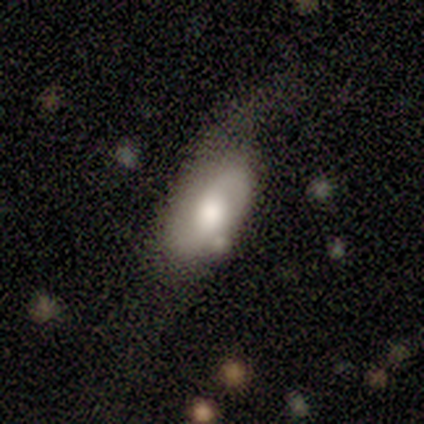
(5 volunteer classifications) Smooth or featured? featured or disk (60%)
Edge-on disk? no (100%)
Bar? no (67%)
Spiral arms? yes (67%)
Spiral winding? medium (50%, tied with loose)
Spiral arm count? 1 (50%, tied with 2)
Bulge size? moderate (67%)
Merging? minor disturbance (60%)